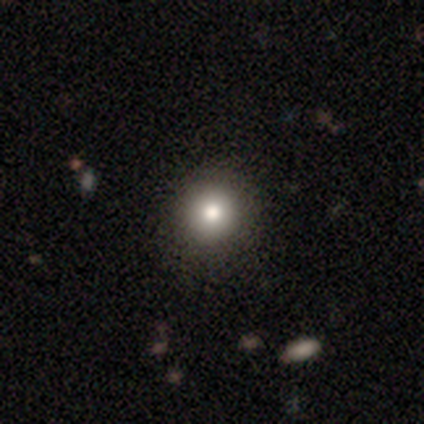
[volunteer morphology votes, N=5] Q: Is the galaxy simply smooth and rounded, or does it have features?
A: smooth — 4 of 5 (80%).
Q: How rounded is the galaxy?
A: round — 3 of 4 (75%).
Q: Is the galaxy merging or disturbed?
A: none — 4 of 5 (80%).